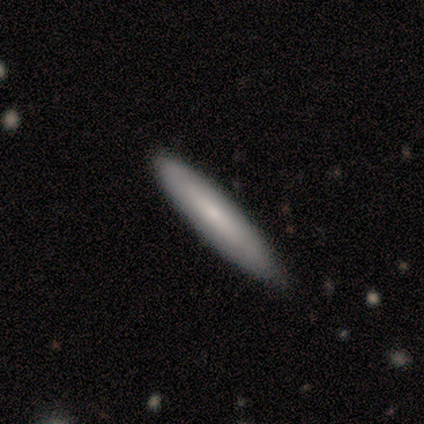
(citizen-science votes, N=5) A smooth galaxy with no disk features (60%) that is cigar-shaped (67%). Merging: none (100%).